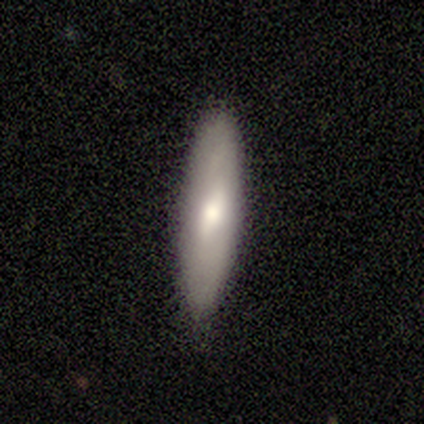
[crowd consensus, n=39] Volunteers were most divided on "smooth or featured": smooth: 56%, featured or disk: 28%, star or artifact: 15%. More confident: how rounded — cigar-shaped (77%); merging — none (76%).